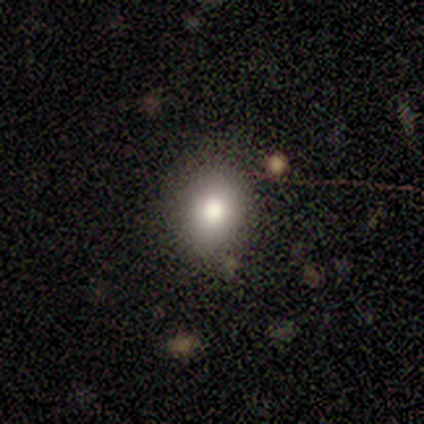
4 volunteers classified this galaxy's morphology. Smooth or featured? 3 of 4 (75%) said smooth. How rounded? 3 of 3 (100%) said in between. Merging? 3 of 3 (100%) said none.